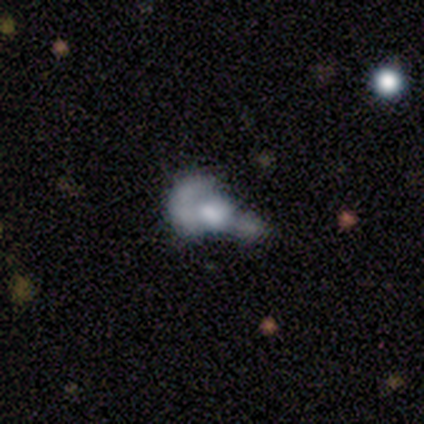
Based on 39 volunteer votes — This is possibly a featured or disk galaxy (56%). It is clearly not viewed edge-on (95%). Bar: clearly no (90%). Spiral arm pattern: clearly no (95%). Central bulge: marginally moderate (43%). Merging: possibly merger (57%).